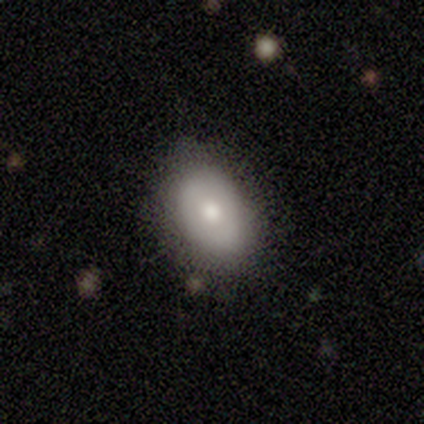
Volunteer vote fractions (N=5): This appears to be a smooth galaxy with no disk features (80%) that is in between round and cigar-shaped (100%). Merging: none (60%).